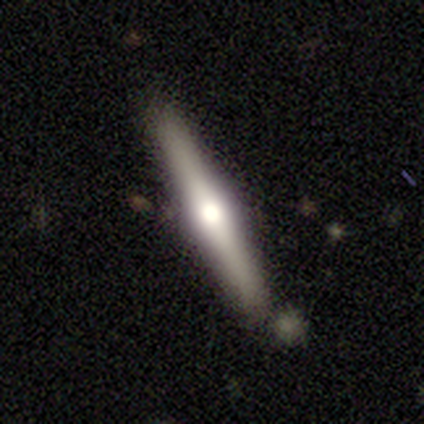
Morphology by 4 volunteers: Smooth or featured: featured or disk — 100%
Edge-on disk: yes — 100%
Edge-on bulge: rounded — 100%
Merging: none — 100%